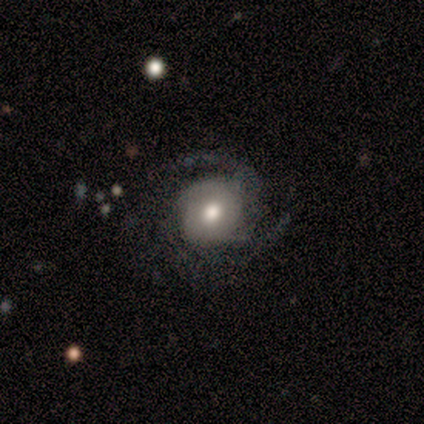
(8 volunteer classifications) This appears to be a featured or disk galaxy (88%) with no bar (71%), 2 (43%) medium (43%, tied with loose) spiral arms (100%) and a moderate central bulge (71%). Merging: none (50%).